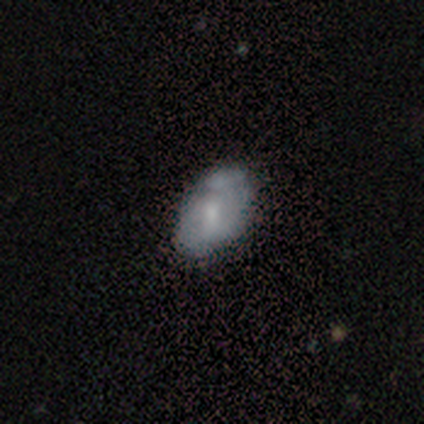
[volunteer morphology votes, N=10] Smooth or featured? 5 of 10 (50%, tied with featured or disk) said smooth. How rounded? 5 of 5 (100%) said in between. Merging? 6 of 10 (60%) said minor disturbance.